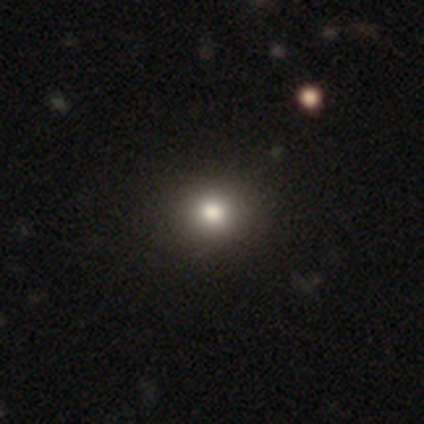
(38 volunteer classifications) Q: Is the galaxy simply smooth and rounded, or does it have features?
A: smooth — 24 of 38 (63%).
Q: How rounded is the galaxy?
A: round — 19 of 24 (79%).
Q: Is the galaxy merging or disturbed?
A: none — 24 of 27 (89%).